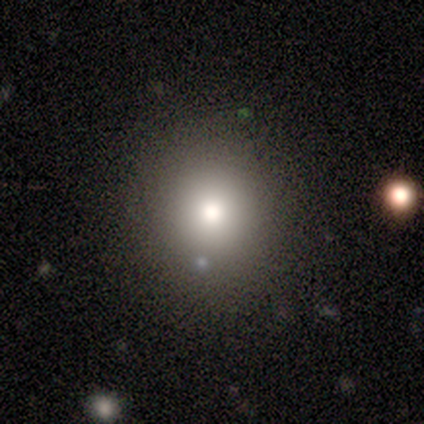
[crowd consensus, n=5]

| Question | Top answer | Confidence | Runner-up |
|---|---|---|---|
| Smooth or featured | smooth | 60% | featured or disk (20%) |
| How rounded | round | 100% | — |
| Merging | none | 100% | — |